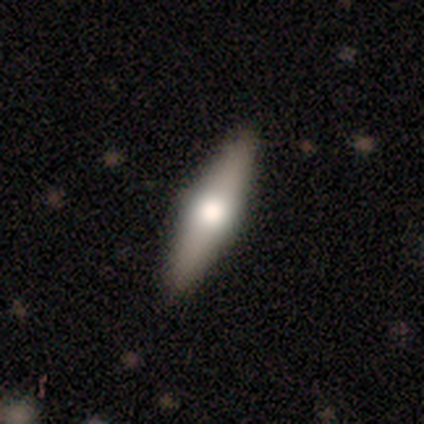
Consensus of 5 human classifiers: Smooth or featured? featured or disk (60%)
Edge-on disk? no (67%)
Bar? weak (50%, tied with no)
Spiral arms? no (100%)
Bulge size? moderate (100%)
Merging? none (80%)